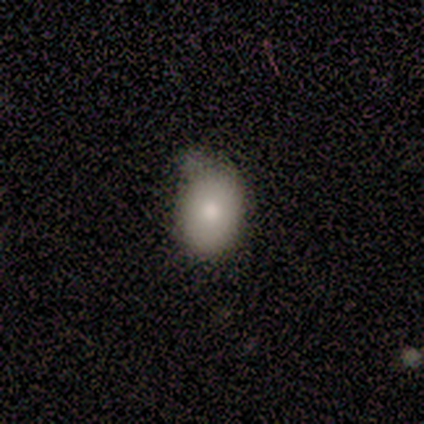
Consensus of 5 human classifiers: smooth-or-featured: smooth: 80% | featured or disk: 20% | star or artifact: 0%
  how-rounded: in between: 100% | round: 0% | cigar-shaped: 0%
  merging: minor disturbance: 60% | none: 40% | major disturbance: 0% | merger: 0%